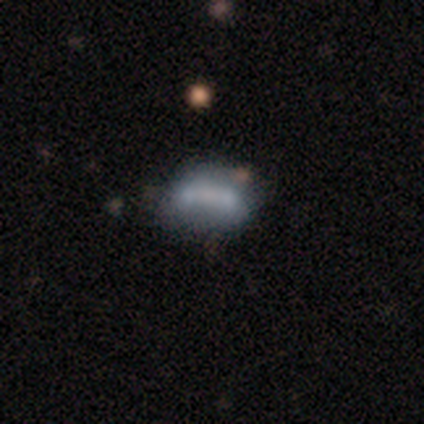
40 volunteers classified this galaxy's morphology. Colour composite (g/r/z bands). It shows a featured or disk galaxy (48%) with no bar (76%), no spiral arms (82%) and no central bulge (47%). Merging: none (35%).